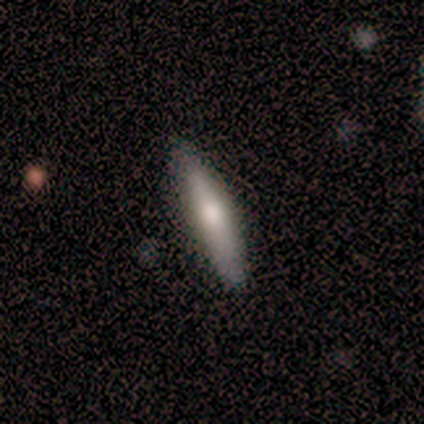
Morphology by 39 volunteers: smooth_or_featured: smooth (p=0.56) [alt: featured or disk p=0.38]
how_rounded: cigar-shaped (p=0.82) [alt: in between p=0.18]
merging: none (p=0.86) [alt: minor disturbance p=0.11]